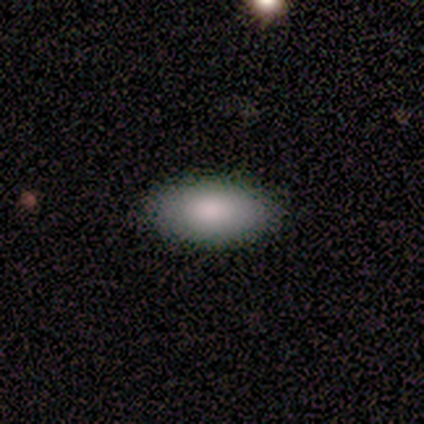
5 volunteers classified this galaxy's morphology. A smooth galaxy with no disk features (80%) that is in between round and cigar-shaped (100%). Merging: none (100%).